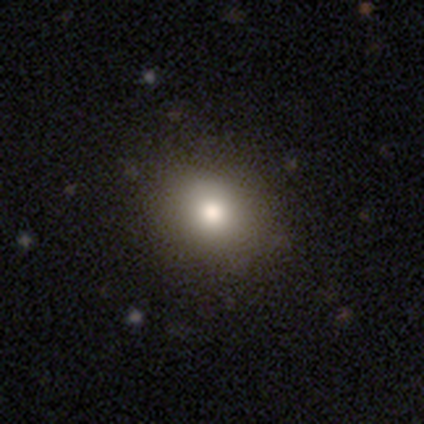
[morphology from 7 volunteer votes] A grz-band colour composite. It shows a smooth galaxy with no disk features (100%) that is round (71%). Merging: none (100%).